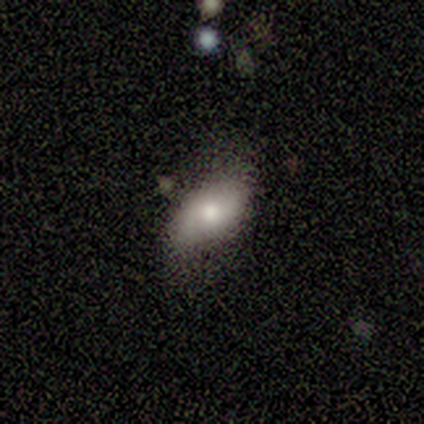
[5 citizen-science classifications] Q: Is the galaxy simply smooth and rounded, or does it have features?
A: smooth — 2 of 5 (40%, tied with featured or disk).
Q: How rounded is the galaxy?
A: in between — 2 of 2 (100%).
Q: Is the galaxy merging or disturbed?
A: minor disturbance — 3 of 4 (75%).